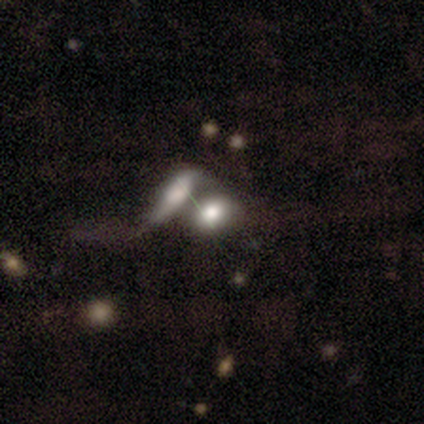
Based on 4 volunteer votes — smooth 75%, featured or disk 25%, star or artifact 0%. Down the decision tree: how rounded — in between (67%); merging — merger (100%).